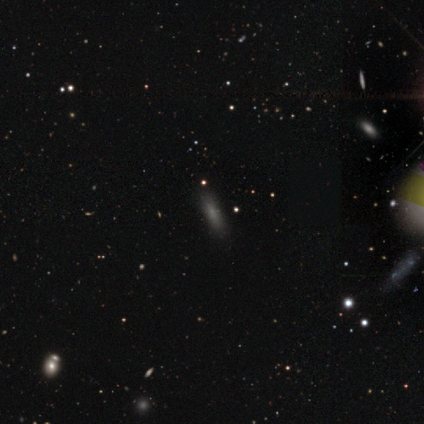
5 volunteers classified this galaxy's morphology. Smooth or featured? 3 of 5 (60%) said featured or disk. Edge-on disk? 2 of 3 (67%) said yes. Edge-on bulge? 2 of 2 (100%) said none. Merging? 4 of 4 (100%) said none.